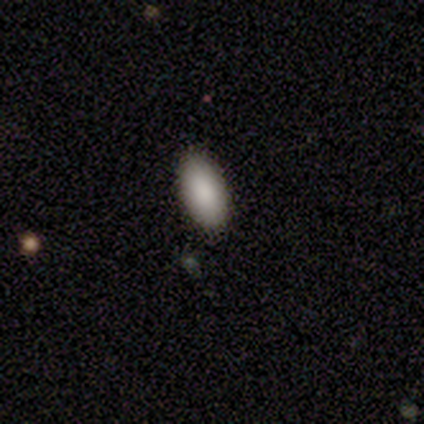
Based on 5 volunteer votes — This is clearly a smooth galaxy (100%). How rounded: clearly in between (100%). Merging: clearly none (100%).